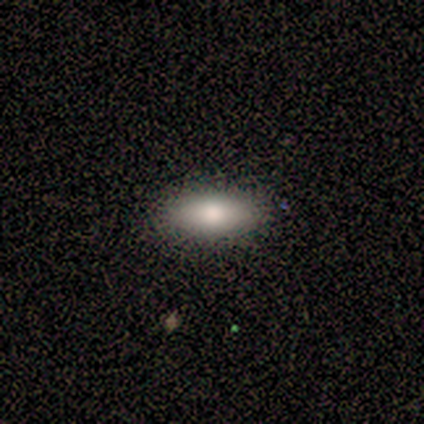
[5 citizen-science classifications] Overall: smooth (80%). How rounded: in between (75%). Merging: none (80%).